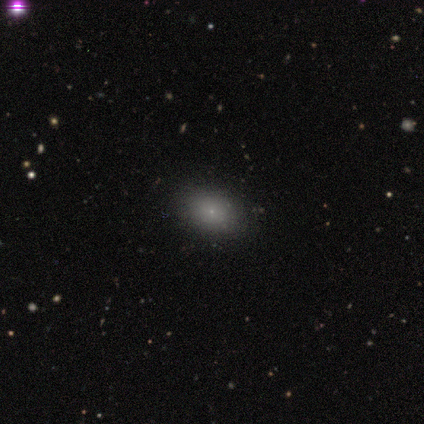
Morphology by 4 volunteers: Smooth or featured: smooth — 100%
How rounded: round — 50% (tied with in between — 50%)
Merging: none — 75% (minor disturbance — 25%)